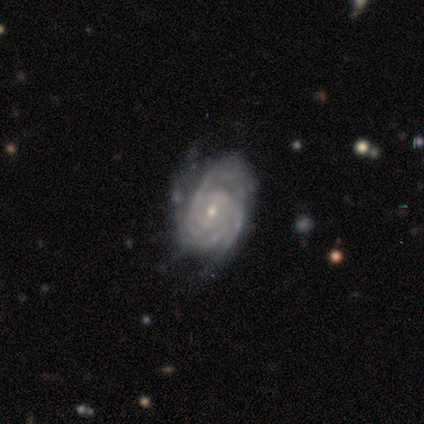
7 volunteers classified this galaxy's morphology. featured or disk 100%, smooth 0%, star or artifact 0%. Down the decision tree: edge-on disk — no (71%); bar — no (80%); spiral arms — yes (100%); spiral arm count — 3 (80%); spiral winding — tight (80%); bulge size — small (80%); merging — none (57%).